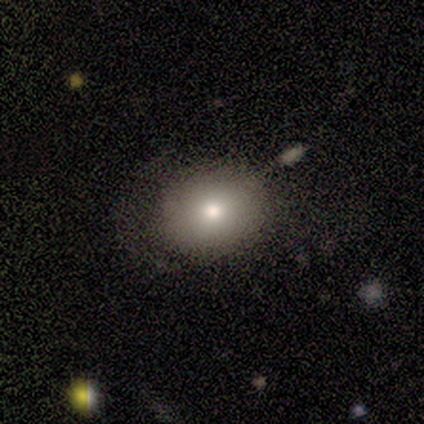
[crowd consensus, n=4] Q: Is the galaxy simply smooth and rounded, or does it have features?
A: smooth — 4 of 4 (100%).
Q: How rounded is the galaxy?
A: in between — 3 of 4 (75%).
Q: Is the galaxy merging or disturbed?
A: none — 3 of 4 (75%).